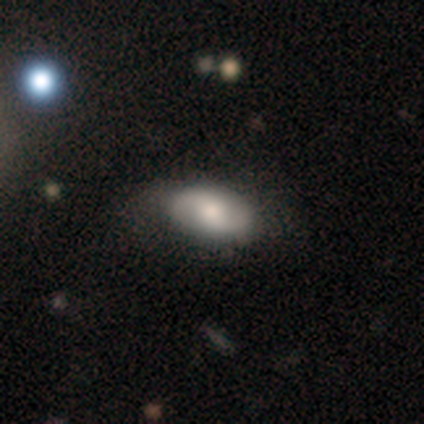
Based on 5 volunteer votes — Smooth or featured? 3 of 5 (60%) said featured or disk. Edge-on disk? 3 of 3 (100%) said no. Bar? 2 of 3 (67%) said weak. Spiral arms? 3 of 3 (100%) said yes. Spiral winding? 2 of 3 (67%) said medium. Spiral arm count? 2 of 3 (67%) said 2. Bulge size? 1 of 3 (33%, tied with small and none) said moderate. Merging? 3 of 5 (60%) said none.